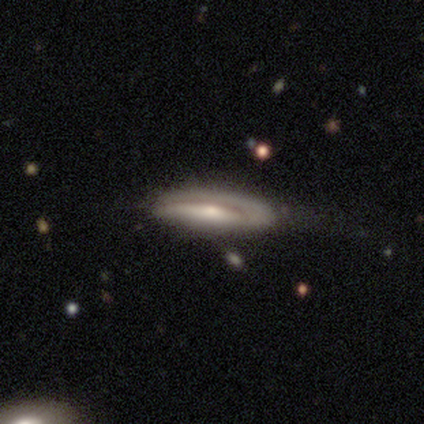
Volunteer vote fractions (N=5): Smooth or featured? smooth (60%)
How rounded? cigar-shaped (67%)
Merging? none (50%)